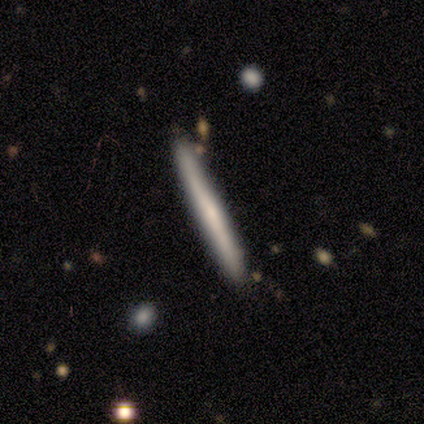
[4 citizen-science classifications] Q: Smooth or featured?
A: featured or disk (50%); runner-up: smooth (25%)
Q: Edge-on disk?
A: yes (100%)
Q: Edge-on bulge?
A: none (50%); tied with: rounded (50%)
Q: Merging?
A: none (100%)